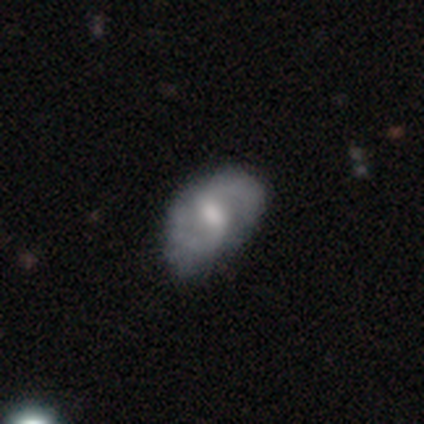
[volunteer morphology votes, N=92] Q: Smooth or featured?
A: featured or disk (64%); runner-up: smooth (33%)
Q: Edge-on disk?
A: no (100%)
Q: Bar?
A: weak (51%); runner-up: no (34%)
Q: Spiral arms?
A: yes (76%); runner-up: no (24%)
Q: Spiral winding?
A: medium (53%); runner-up: tight (29%)
Q: Spiral arm count?
A: 2 (89%); runner-up: can't tell (7%)
Q: Bulge size?
A: moderate (66%); runner-up: small (20%)
Q: Merging?
A: none (52%); runner-up: minor disturbance (37%)